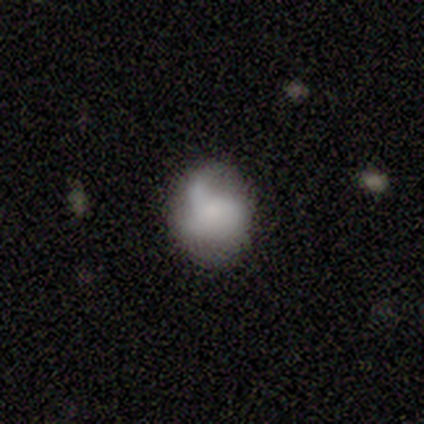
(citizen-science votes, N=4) Q: Smooth or featured?
A: featured or disk (75%); runner-up: smooth (25%)
Q: Edge-on disk?
A: no (100%)
Q: Bar?
A: no (100%)
Q: Spiral arms?
A: no (67%); runner-up: yes (33%)
Q: Bulge size?
A: large (33%); tied with: small (33%); none (33%)
Q: Merging?
A: none (50%); runner-up: minor disturbance (25%)